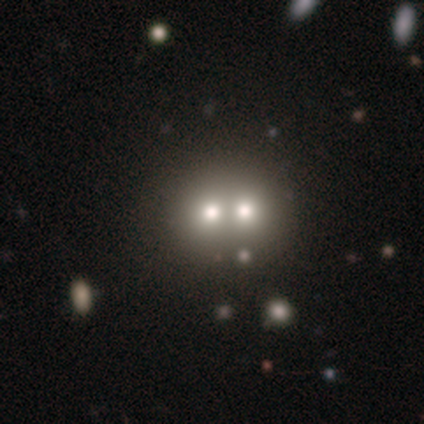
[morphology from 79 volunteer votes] A smooth galaxy with no disk features (63%) that is round (76%). Merging: merger (84%).